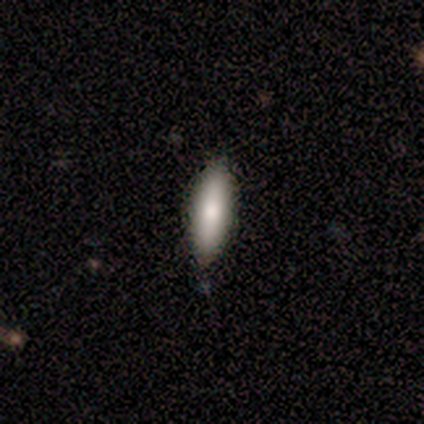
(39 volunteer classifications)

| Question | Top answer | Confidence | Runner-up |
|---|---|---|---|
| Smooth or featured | smooth | 77% | featured or disk (23%) |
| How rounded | in between | 50% | tied: cigar-shaped (50%) |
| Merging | none | 92% | minor disturbance (5%) |